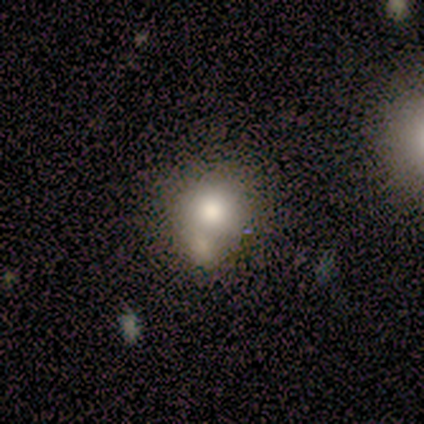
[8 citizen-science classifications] This is likely a smooth galaxy (75%). How rounded: clearly round (83%). Merging: possibly minor disturbance (50%).